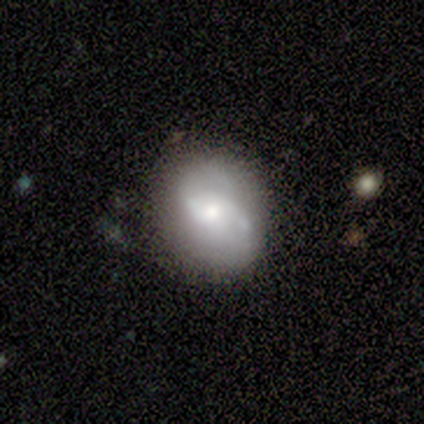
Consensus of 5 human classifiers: Overall: featured or disk (60%; smooth 20%). Edge-on disk: no (100%). Bar: no (67%; weak 33%). Spiral arms: yes (67%; no 33%). Spiral arm count: 2 (100%). Spiral winding: tight (50%, tied with loose). Bulge size: moderate (67%; small 33%). Merging: none (50%; minor disturbance 25%).